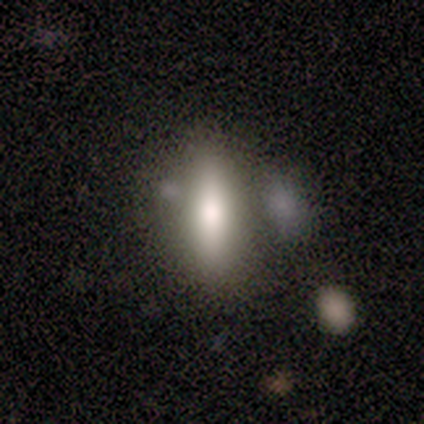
Smooth or featured? 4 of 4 (100%) said smooth. How rounded? 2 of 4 (50%, tied with cigar-shaped) said in between. Merging? 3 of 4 (75%) said none.